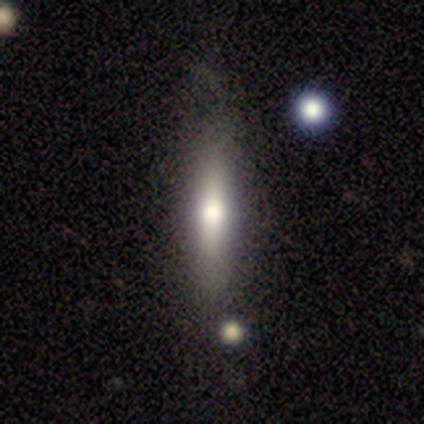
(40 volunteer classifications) Smooth or featured? 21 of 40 (52%) said featured or disk. Edge-on disk? 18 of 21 (86%) said yes. Edge-on bulge? 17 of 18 (94%) said rounded. Merging? 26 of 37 (70%) said none.